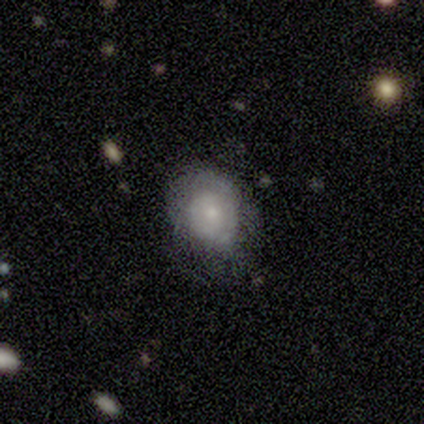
A featured or disk galaxy (75%) with a weak bar (50%, tied with no), tight (100%) spiral arms (100%) and a moderate central bulge (50%, tied with small).

Vote fractions:
- Smooth or featured? featured or disk: 75% / smooth: 25% / star or artifact: 0%
- Edge-on disk? no: 67% / yes: 33%
- Bar? weak: 50% (tied) / no: 50% (tied) / strong: 0%
- Spiral arms? yes: 100% / no: 0%
- Spiral winding? tight: 100% / medium: 0% / loose: 0%
- Spiral arm count? can't tell: 100% / 1: 0% / 2: 0% / 3: 0% / 4: 0% / more than 4: 0%
- Bulge size? moderate: 50% (tied) / small: 50% (tied) / dominant: 0% / large: 0% / none: 0%
- Merging? minor disturbance: 50% / none: 25% / major disturbance: 25% / merger: 0%